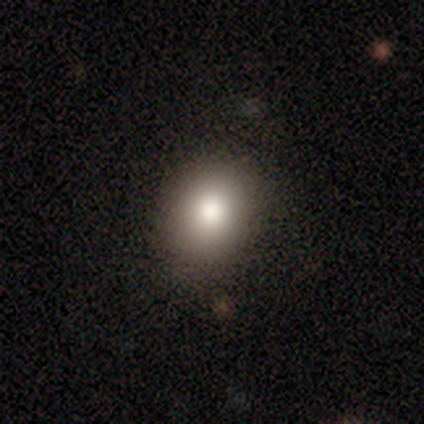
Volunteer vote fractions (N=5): Overall: smooth (100%). How rounded: round (60%; in between 40%). Merging: none (80%).